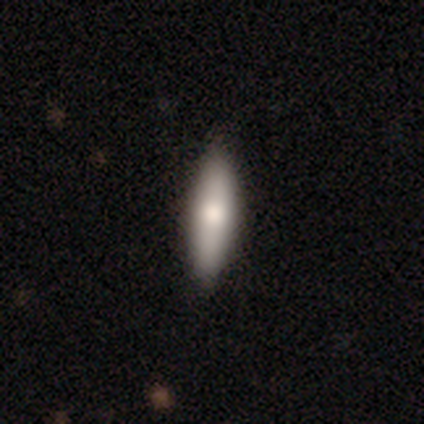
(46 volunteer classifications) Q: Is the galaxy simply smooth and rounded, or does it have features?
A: smooth — 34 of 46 (74%).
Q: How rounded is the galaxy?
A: cigar-shaped — 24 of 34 (71%).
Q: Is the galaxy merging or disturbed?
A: none — 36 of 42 (86%).